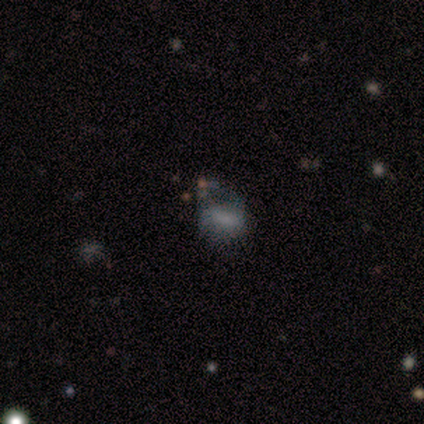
Q: Smooth or featured?
A: smooth (100%)
Q: How rounded?
A: in between (100%)
Q: Merging?
A: none (50%); tied with: major disturbance (50%)